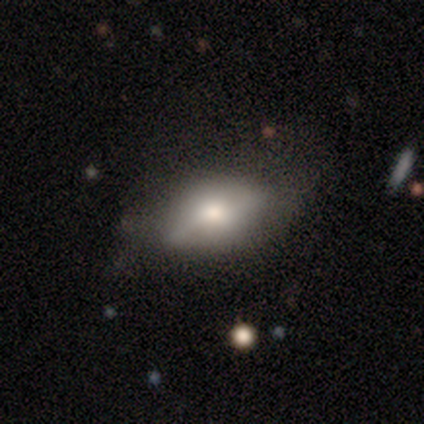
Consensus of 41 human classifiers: smooth 56%, featured or disk 32%, star or artifact 12%. Down the decision tree: how rounded — in between (87%); merging — none (50%).